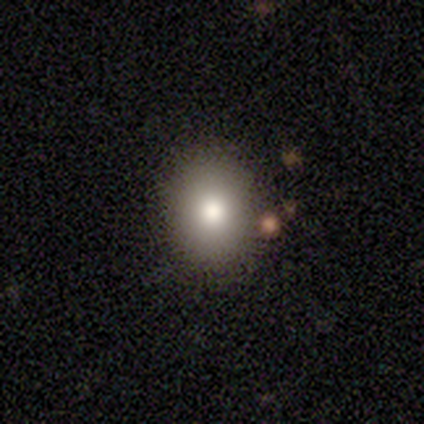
Smooth or featured? smooth (100%)
How rounded? round (100%)
Merging? none (80%)